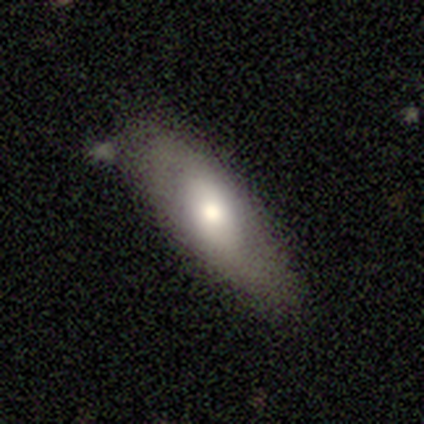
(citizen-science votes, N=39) Volunteers were most divided on "how rounded": in between: 70%, cigar-shaped: 30%, round: 0%. More confident: merging — none (79%); smooth or featured — smooth (69%).